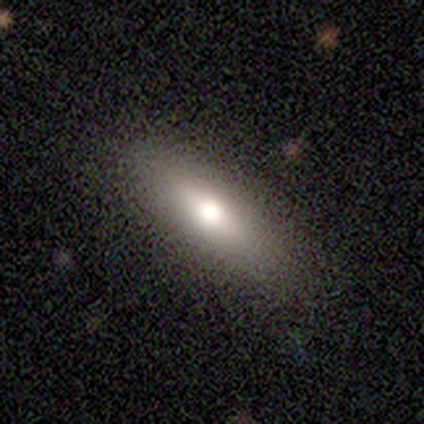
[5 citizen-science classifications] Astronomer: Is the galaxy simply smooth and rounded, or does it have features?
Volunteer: smooth — 80%.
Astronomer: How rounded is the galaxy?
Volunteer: in between — 50%, tied with cigar-shaped at 50%.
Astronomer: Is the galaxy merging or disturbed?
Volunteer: none — 80%.